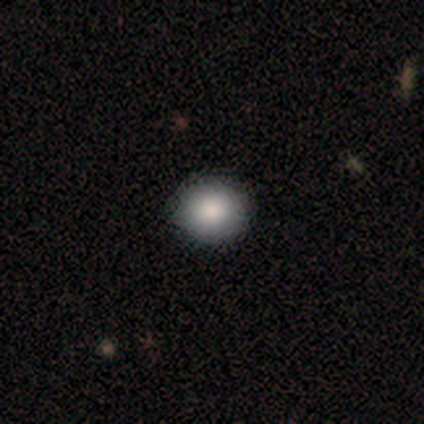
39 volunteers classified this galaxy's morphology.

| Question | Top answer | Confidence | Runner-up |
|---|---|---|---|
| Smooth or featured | smooth | 95% | star or artifact (5%) |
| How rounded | round | 84% | in between (14%) |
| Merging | none | 65% | minor disturbance (3%) |